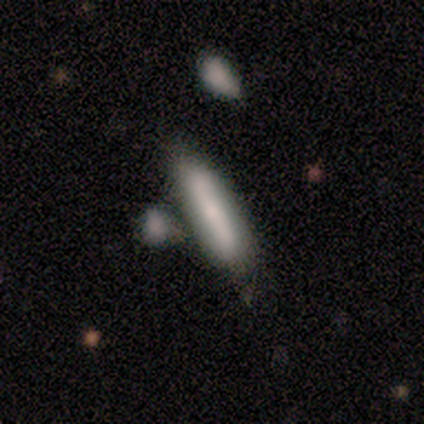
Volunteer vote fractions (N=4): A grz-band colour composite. It shows a smooth galaxy with no disk features (50%, tied with featured or disk) that is cigar-shaped (100%). Merging: none (50%).